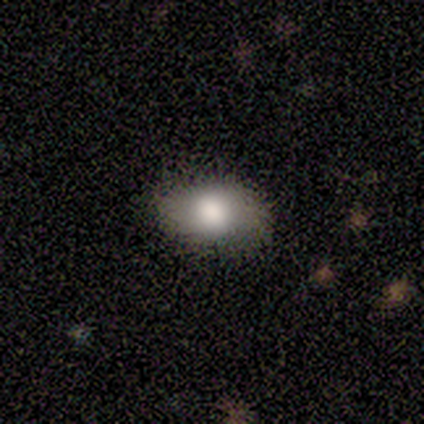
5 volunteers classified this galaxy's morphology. A smooth galaxy with no disk features (80%) that is in between round and cigar-shaped (100%). Merging: none (80%).